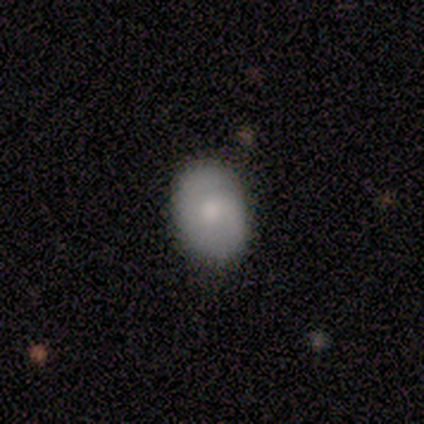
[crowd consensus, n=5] smooth_or_featured: smooth (p=0.80) [alt: featured or disk p=0.20]
how_rounded: in between (p=0.75) [alt: round p=0.25]
merging: none (p=0.60) [alt: minor disturbance p=0.40]